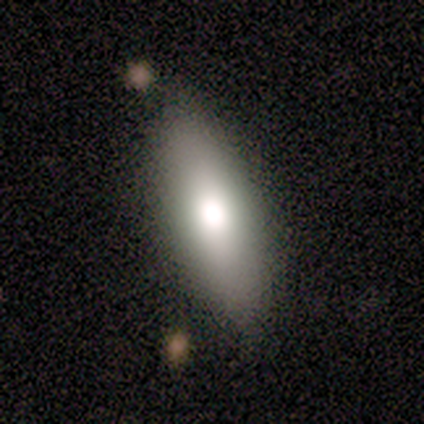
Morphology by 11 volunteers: smooth-or-featured: smooth: 82% | featured or disk: 18% | star or artifact: 0%
  how-rounded: in between: 78% | cigar-shaped: 22% | round: 0%
  merging: none: 73% | minor disturbance: 27% | major disturbance: 0% | merger: 0%